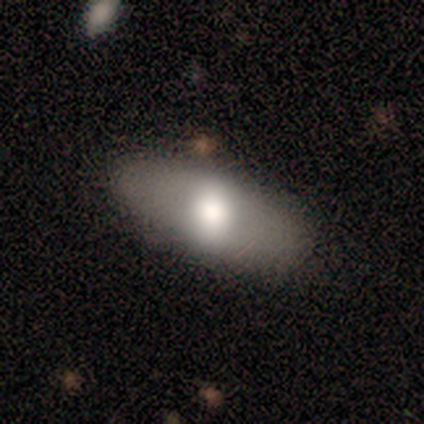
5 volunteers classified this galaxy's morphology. A smooth galaxy with no disk features (60%) that is in between round and cigar-shaped (100%).

Vote fractions:
- Smooth or featured? smooth: 60% / featured or disk: 20% / star or artifact: 20%
- How rounded? in between: 100% / round: 0% / cigar-shaped: 0%
- Merging? none: 100% / minor disturbance: 0% / major disturbance: 0% / merger: 0%